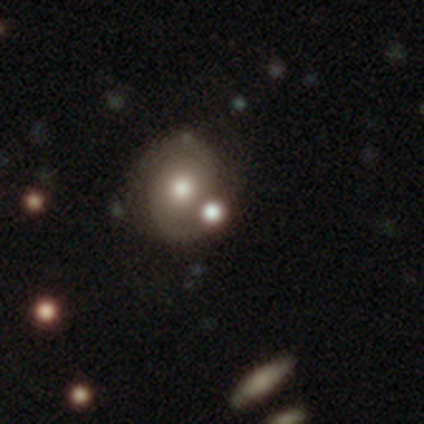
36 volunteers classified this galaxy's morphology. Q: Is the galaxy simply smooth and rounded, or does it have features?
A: featured or disk — 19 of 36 (53%).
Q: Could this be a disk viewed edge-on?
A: no — 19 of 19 (100%).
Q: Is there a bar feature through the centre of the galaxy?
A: no — 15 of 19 (79%).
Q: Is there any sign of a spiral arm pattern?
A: yes — 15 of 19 (79%).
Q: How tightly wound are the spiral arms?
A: medium — 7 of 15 (47%).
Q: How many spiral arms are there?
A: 2 — 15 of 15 (100%).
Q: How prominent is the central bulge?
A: moderate — 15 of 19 (79%).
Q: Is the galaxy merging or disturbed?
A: none — 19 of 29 (66%).